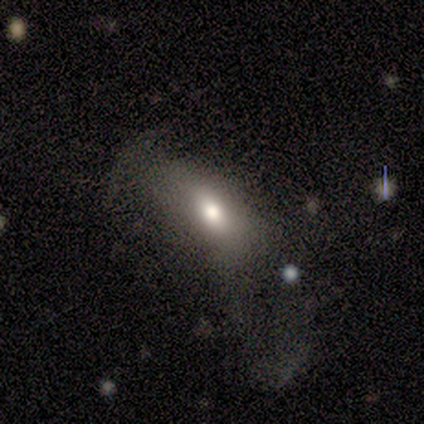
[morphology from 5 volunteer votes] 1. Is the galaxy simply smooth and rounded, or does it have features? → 80% smooth, 20% featured or disk, 0% star or artifact.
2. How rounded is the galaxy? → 75% in between, 25% round, 0% cigar-shaped.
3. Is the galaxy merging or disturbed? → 60% major disturbance, 40% minor disturbance, 0% none, 0% merger.